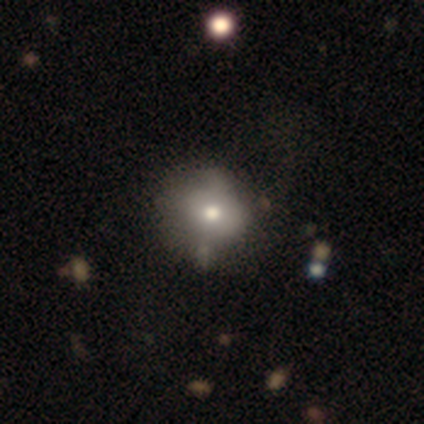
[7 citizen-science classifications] Smooth or featured: smooth — 86% (star or artifact — 14%)
How rounded: round — 67% (in between — 33%)
Merging: none — 67% (major disturbance — 33%)